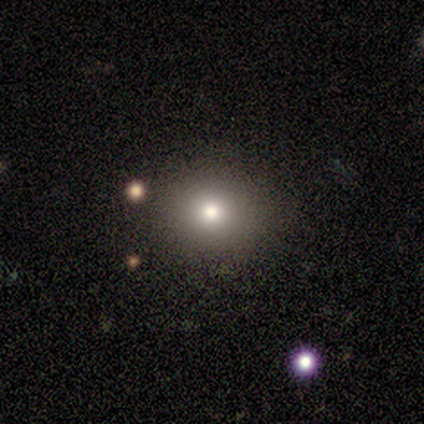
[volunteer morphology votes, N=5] Volunteers were most divided on "smooth or featured": smooth: 60%, star or artifact: 40%, featured or disk: 0%. More confident: how rounded — round (67%); merging — none (67%).